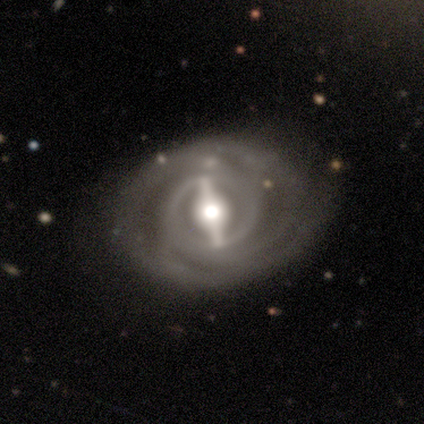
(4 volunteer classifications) Q: Smooth or featured?
A: featured or disk (75%); runner-up: star or artifact (25%)
Q: Edge-on disk?
A: no (100%)
Q: Bar?
A: strong (100%)
Q: Spiral arms?
A: yes (100%)
Q: Spiral winding?
A: tight (67%); runner-up: medium (33%)
Q: Spiral arm count?
A: 2 (33%); tied with: 4 (33%); can't tell (33%)
Q: Bulge size?
A: moderate (67%); runner-up: large (33%)
Q: Merging?
A: none (67%); runner-up: minor disturbance (33%)